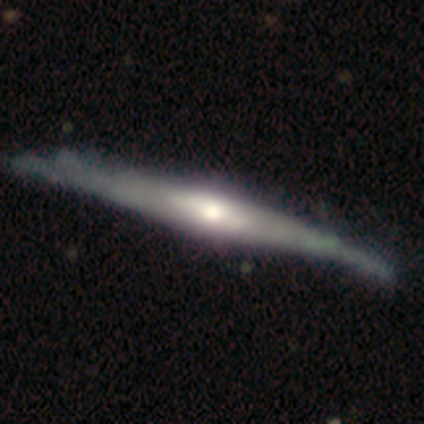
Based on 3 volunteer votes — This appears to be a featured or disk galaxy (67%) viewed edge-on (100%) with a rounded central bulge (100%). Merging: none (67%).